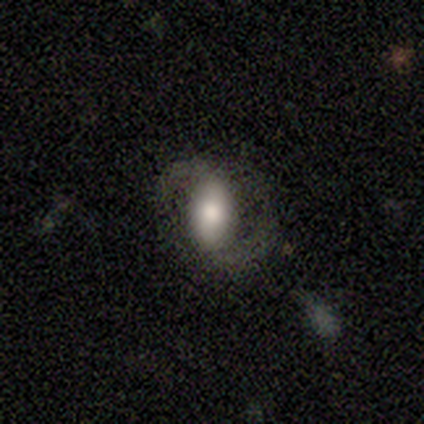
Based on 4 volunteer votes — A featured or disk galaxy (100%) with a weak bar (100%), 2 (100%) loose (75%) spiral arms (100%) and a small central bulge (50%).

Vote fractions:
- Smooth or featured? featured or disk: 100% / smooth: 0% / star or artifact: 0%
- Edge-on disk? no: 100% / yes: 0%
- Bar? weak: 100% / strong: 0% / no: 0%
- Spiral arms? yes: 100% / no: 0%
- Spiral winding? loose: 75% / medium: 25% / tight: 0%
- Spiral arm count? 2: 100% / 1: 0% / 3: 0% / 4: 0% / more than 4: 0% / can't tell: 0%
- Bulge size? small: 50% / large: 25% / moderate: 25% / dominant: 0% / none: 0%
- Merging? none: 50% / minor disturbance: 25% / major disturbance: 25% / merger: 0%